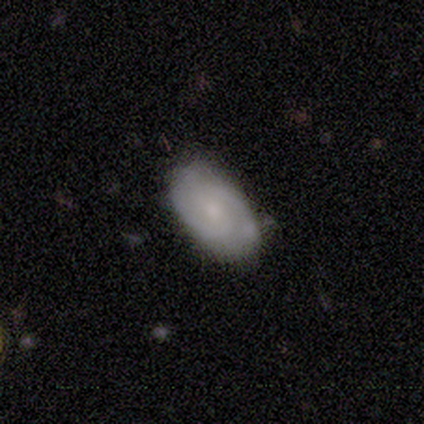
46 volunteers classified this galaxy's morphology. smooth_or_featured: featured or disk (p=0.70) [alt: smooth p=0.24]
disk_edge_on: no (p=1.00)
bar: no (p=0.56) [alt: weak p=0.31]
has_spiral_arms: yes (p=0.97) [alt: no p=0.03]
spiral_winding: medium (p=0.48) [alt: tight p=0.39]
spiral_arm_count: 2 (p=0.74) [alt: 3 p=0.16]
bulge_size: small (p=0.59) [alt: moderate p=0.31]
merging: none (p=0.72) [alt: minor disturbance p=0.26]